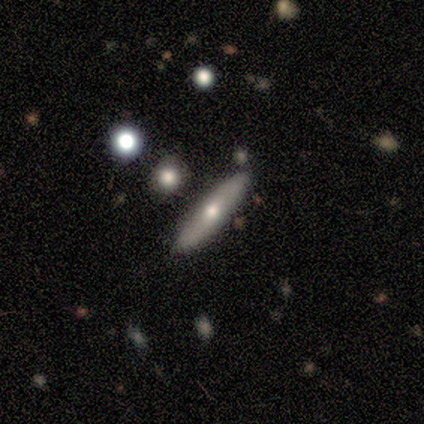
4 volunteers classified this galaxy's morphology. smooth_or_featured: smooth (p=0.50) [tied with: featured or disk p=0.50]
how_rounded: cigar-shaped (p=1.00)
merging: none (p=0.75) [alt: merger p=0.25]